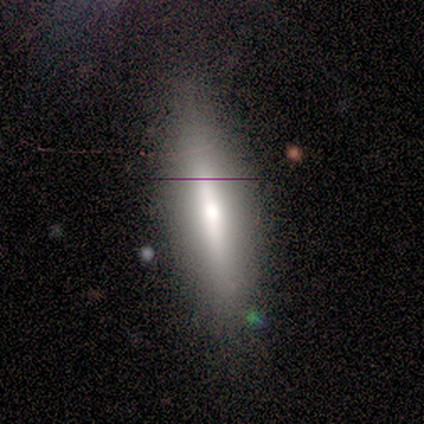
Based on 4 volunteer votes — smooth 50% (tied), featured or disk 50% (tied), star or artifact 0%. Down the decision tree: how rounded — in between (50%, tied with cigar-shaped); merging — none (75%).